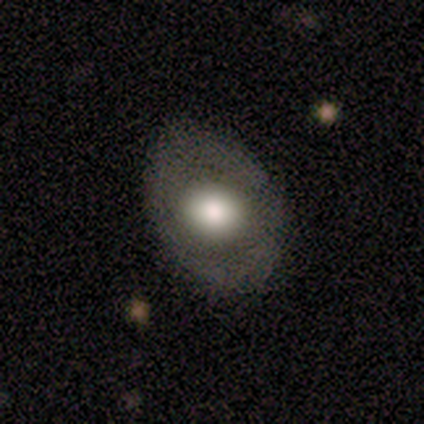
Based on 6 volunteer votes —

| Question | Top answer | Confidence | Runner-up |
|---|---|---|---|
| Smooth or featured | smooth | 83% | featured or disk (17%) |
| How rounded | in between | 80% | round (20%) |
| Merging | none | 83% | minor disturbance (17%) |